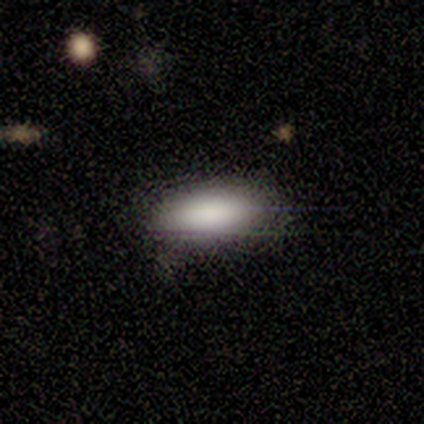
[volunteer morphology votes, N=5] A smooth galaxy with no disk features (100%) that is in between round and cigar-shaped (80%).

Vote fractions:
- Smooth or featured? smooth: 100% / featured or disk: 0% / star or artifact: 0%
- How rounded? in between: 80% / cigar-shaped: 20% / round: 0%
- Merging? none: 80% / minor disturbance: 20% / major disturbance: 0% / merger: 0%